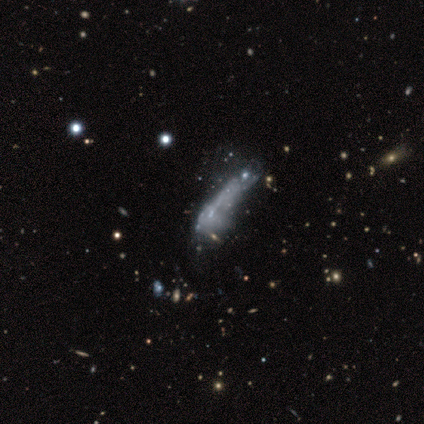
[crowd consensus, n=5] Smooth or featured: smooth — 40% (tied with star or artifact — 40%)
How rounded: in between — 50% (tied with cigar-shaped — 50%)
Merging: minor disturbance — 33% (tied with major disturbance — 33%; merger — 33%)